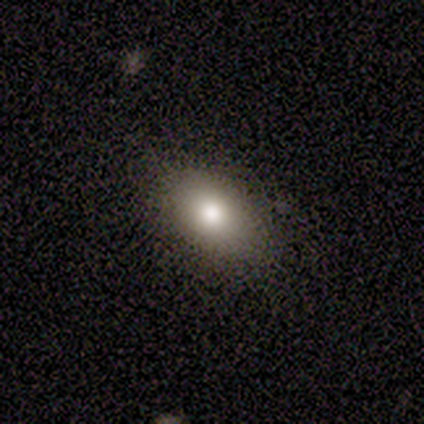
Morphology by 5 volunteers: Consensus on every question: smooth or featured — smooth (100%); how rounded — in between (100%); merging — none (100%).